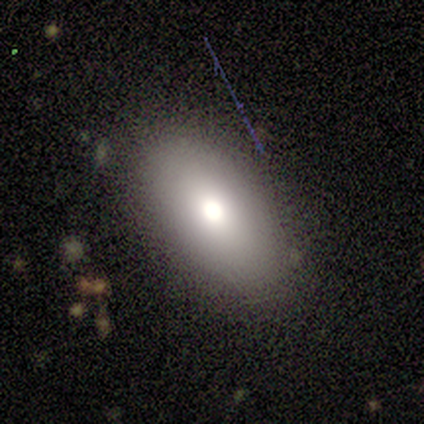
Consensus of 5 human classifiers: A smooth galaxy with no disk features (60%) that is in between round and cigar-shaped (67%).

Vote fractions:
- Smooth or featured? smooth: 60% / featured or disk: 40% / star or artifact: 0%
- How rounded? in between: 67% / cigar-shaped: 33% / round: 0%
- Merging? none: 80% / minor disturbance: 20% / major disturbance: 0% / merger: 0%